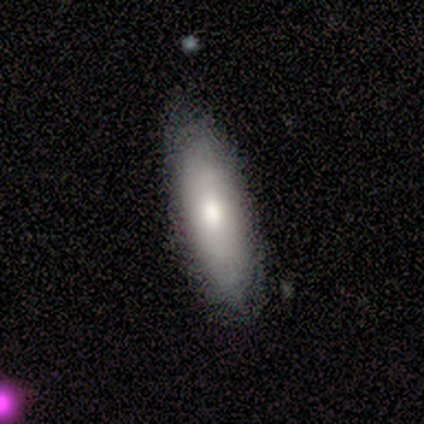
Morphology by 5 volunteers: smooth-or-featured: featured or disk: 60% | smooth: 40% | star or artifact: 0%
  disk-edge-on: no: 67% | yes: 33%
    bar: no: 100% | strong: 0% | weak: 0%
    has-spiral-arms: yes: 50% (tied) | no: 50% (tied)
      spiral-winding: loose: 100% | tight: 0% | medium: 0%
      spiral-arm-count: 2: 100% | 1: 0% | 3: 0% | 4: 0% | more than 4: 0% | can't tell: 0%
    bulge-size: moderate: 50% (tied) | small: 50% (tied) | dominant: 0% | large: 0% | none: 0%
  merging: none: 100% | minor disturbance: 0% | major disturbance: 0% | merger: 0%